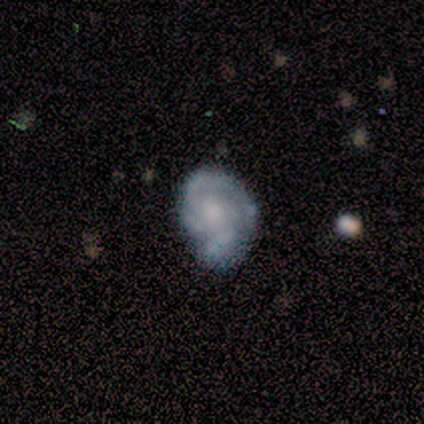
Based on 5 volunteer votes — A featured or disk galaxy (80%) with no bar (75%), 3 (33%, tied with 4 and can't tell) loose (67%) spiral arms (75%) and a moderate central bulge (50%). Merging: minor disturbance (60%).